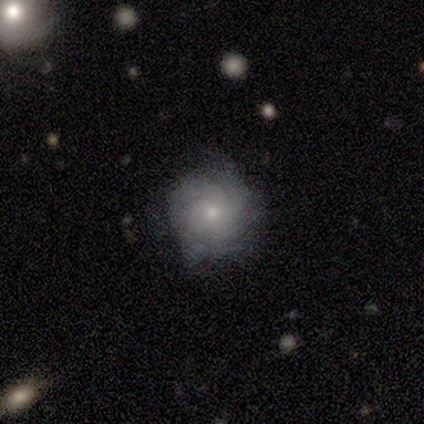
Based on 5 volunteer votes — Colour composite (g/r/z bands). It shows a featured or disk galaxy (60%) with no bar (100%), 3 (100%) tight (100%) spiral arms (67%) and a small central bulge (67%). Merging: none (100%).